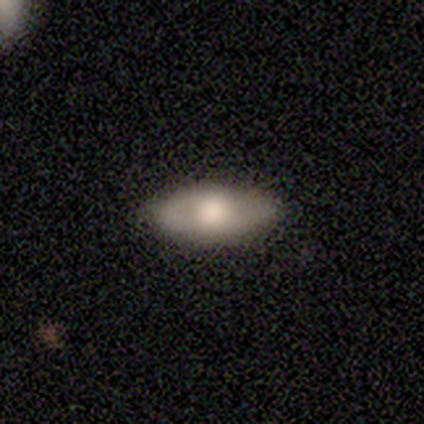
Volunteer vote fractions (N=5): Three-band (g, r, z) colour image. It shows a featured or disk galaxy (60%) with no bar (100%), no spiral arms (67%) and a moderate central bulge (67%). Merging: none (100%).